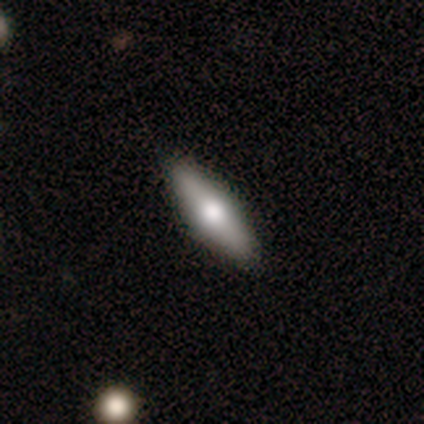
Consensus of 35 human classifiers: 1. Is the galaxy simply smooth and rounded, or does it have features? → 54% smooth, 43% featured or disk, 3% star or artifact.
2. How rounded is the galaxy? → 58% cigar-shaped, 42% in between, 0% round.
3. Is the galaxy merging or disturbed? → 94% none, 6% minor disturbance, 0% major disturbance, 0% merger.